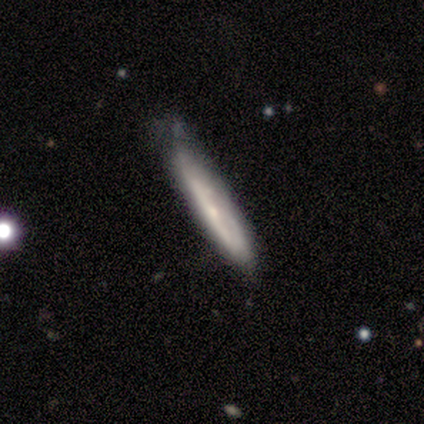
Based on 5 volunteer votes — A featured or disk galaxy (60%) viewed edge-on (100%) with no central bulge (67%). Merging: none (60%).